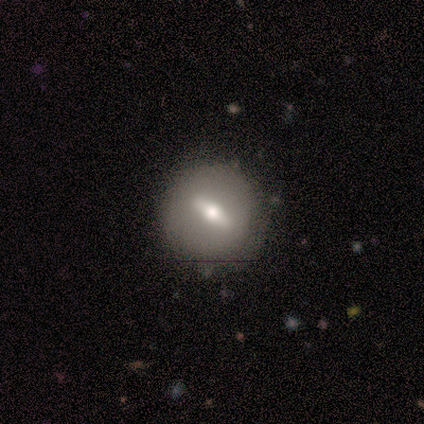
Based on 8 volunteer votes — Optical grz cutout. It shows a featured or disk galaxy (88%) with a strong bar (80%), no spiral arms (100%) and a moderate central bulge (60%). Merging: none (100%).